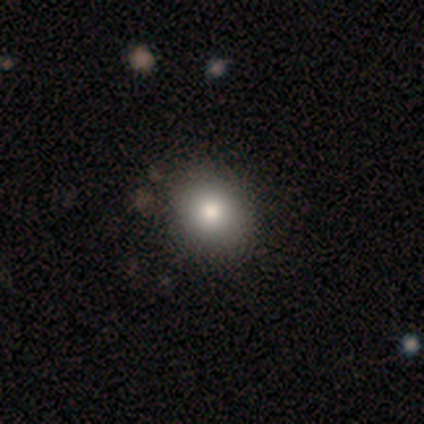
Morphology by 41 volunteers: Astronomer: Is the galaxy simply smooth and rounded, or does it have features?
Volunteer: smooth — 78%.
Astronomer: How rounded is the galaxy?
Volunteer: round — 59% (runner-up: in between, 41%).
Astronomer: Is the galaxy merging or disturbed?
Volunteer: none — 66%.